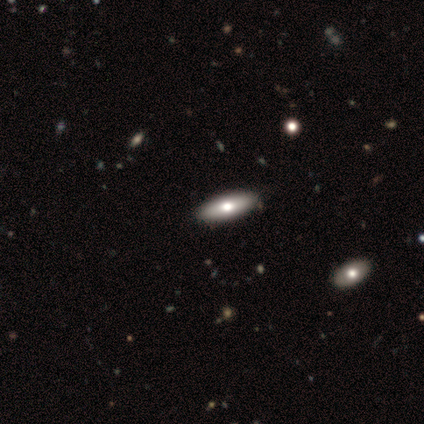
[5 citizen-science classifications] This appears to be a featured or disk galaxy (60%) viewed edge-on (100%) with a rounded central bulge (100%). Merging: none (100%).